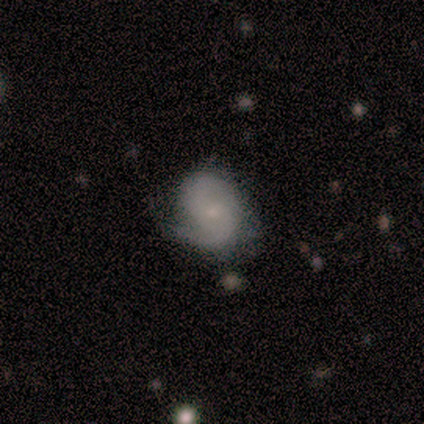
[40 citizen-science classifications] Smooth or featured? 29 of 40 (72%) said featured or disk. Edge-on disk? 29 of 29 (100%) said no. Bar? 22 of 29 (76%) said no. Spiral arms? 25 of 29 (86%) said yes. Spiral winding? 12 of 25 (48%) said tight. Spiral arm count? 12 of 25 (48%) said 2. Bulge size? 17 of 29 (59%) said small. Merging? 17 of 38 (45%, tied with minor disturbance) said none.